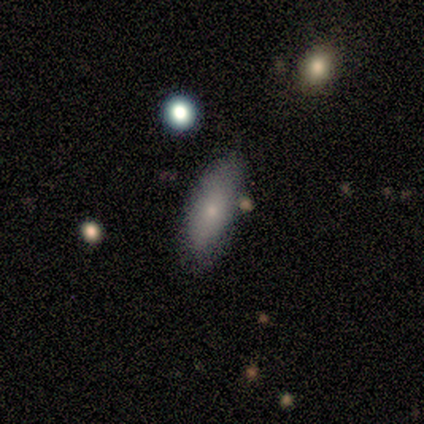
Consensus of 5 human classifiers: Smooth or featured? smooth (100%)
How rounded? in between (100%)
Merging? none (100%)